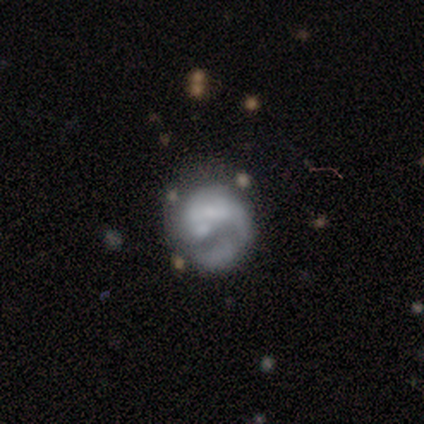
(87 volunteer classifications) smooth_or_featured: featured or disk (p=0.64) [alt: smooth p=0.31]
disk_edge_on: no (p=1.00)
bar: no (p=0.62) [alt: weak p=0.30]
has_spiral_arms: yes (p=0.50) [tied with: no p=0.50]
spiral_winding: medium (p=0.43) [alt: loose p=0.32]
spiral_arm_count: 1 (p=0.75) [alt: 2 p=0.14]
bulge_size: none (p=0.57) [alt: small p=0.21]
merging: none (p=0.45) [alt: major disturbance p=0.27]